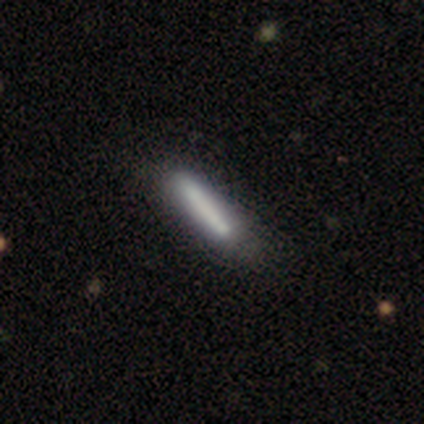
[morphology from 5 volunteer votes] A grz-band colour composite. It shows a smooth galaxy with no disk features (100%) that is cigar-shaped (100%). Merging: none (100%).